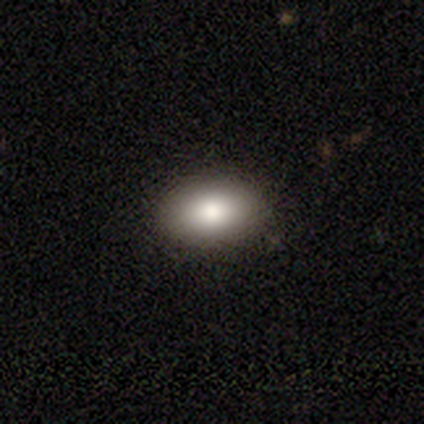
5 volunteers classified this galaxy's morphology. A smooth galaxy with no disk features (60%) that is in between round and cigar-shaped (100%). Merging: none (75%).